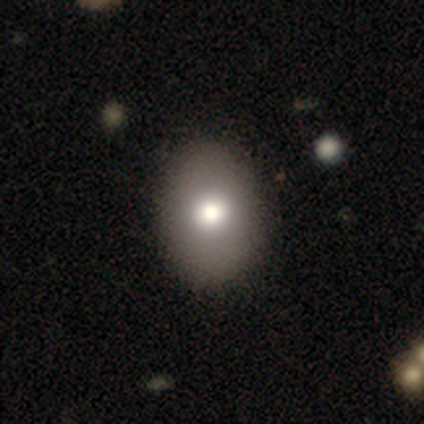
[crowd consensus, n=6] Smooth or featured? smooth (67%)
How rounded? in between (100%)
Merging? none (100%)